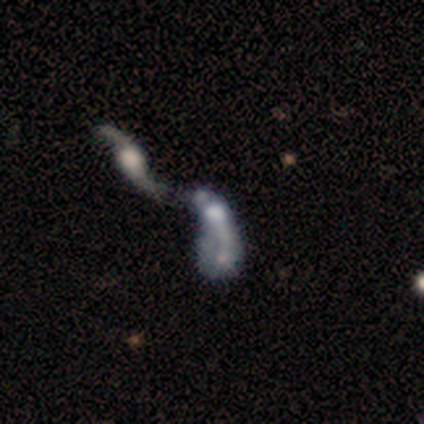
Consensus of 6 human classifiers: featured or disk 67%, smooth 17%, star or artifact 17%. Down the decision tree: edge-on disk — no (100%); bar — weak (50%, tied with no); spiral arms — no (75%); bulge size — moderate (50%); merging — merger (60%).